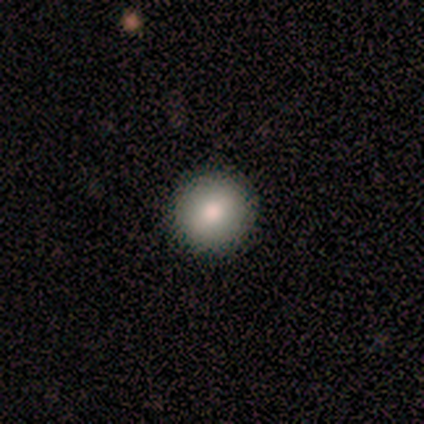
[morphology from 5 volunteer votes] smooth 80%, star or artifact 20%, featured or disk 0%. Down the decision tree: how rounded — round (100%); merging — none (100%).